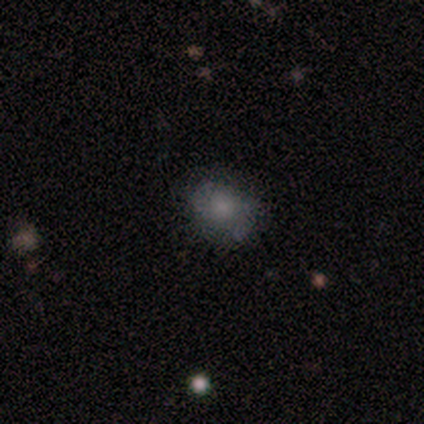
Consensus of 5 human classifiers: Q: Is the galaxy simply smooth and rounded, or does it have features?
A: smooth — 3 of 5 (60%).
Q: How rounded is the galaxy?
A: round — 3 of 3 (100%).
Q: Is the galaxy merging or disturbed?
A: none — 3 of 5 (60%).